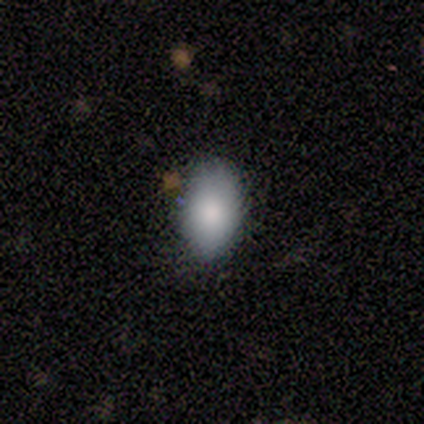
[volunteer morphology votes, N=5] This is clearly a smooth galaxy (80%). How rounded: clearly in between (100%). Merging: possibly none (50%, tied with minor disturbance).